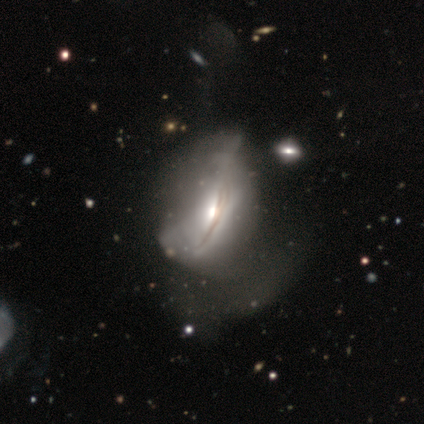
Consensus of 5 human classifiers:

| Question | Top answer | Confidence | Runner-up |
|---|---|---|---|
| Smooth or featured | featured or disk | 80% | smooth (20%) |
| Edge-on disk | no | 75% | yes (25%) |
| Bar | no | 100% | — |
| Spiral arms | no | 100% | — |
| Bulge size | large | 33% | tied: moderate (33%), small (33%) |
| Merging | major disturbance | 80% | minor disturbance (20%) |